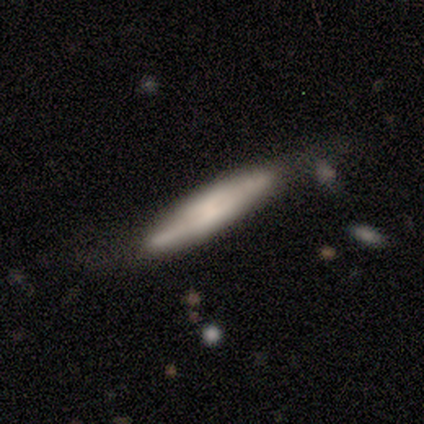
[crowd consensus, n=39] Q: Smooth or featured?
A: smooth (59%); runner-up: featured or disk (33%)
Q: How rounded?
A: cigar-shaped (91%); runner-up: in between (9%)
Q: Merging?
A: none (61%); runner-up: minor disturbance (28%)